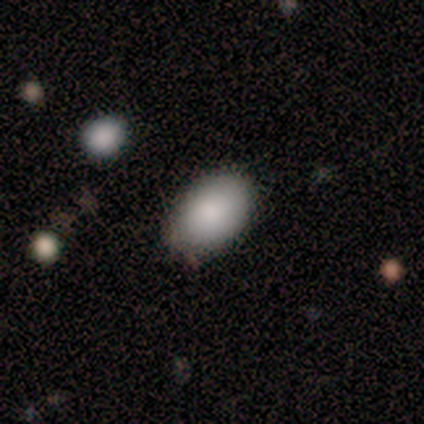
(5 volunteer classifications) Smooth or featured? 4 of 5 (80%) said smooth. How rounded? 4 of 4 (100%) said in between. Merging? 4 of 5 (80%) said none.